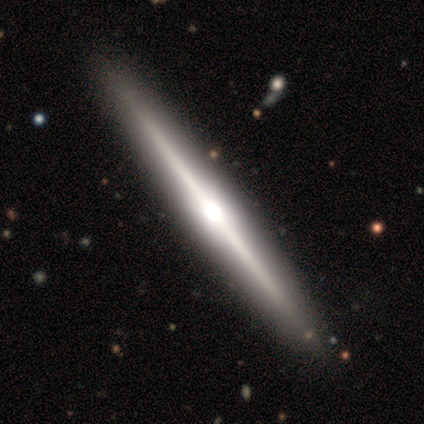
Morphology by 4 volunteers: Smooth or featured: featured or disk — 100%
Edge-on disk: yes — 75% (no — 25%)
Edge-on bulge: rounded — 100%
Merging: none — 100%